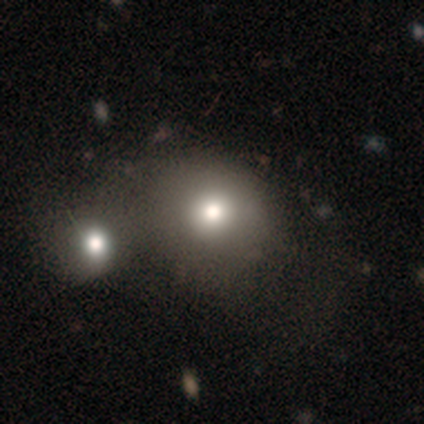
Smooth or featured? smooth (100%)
How rounded? round (62%)
Merging? none (44%)